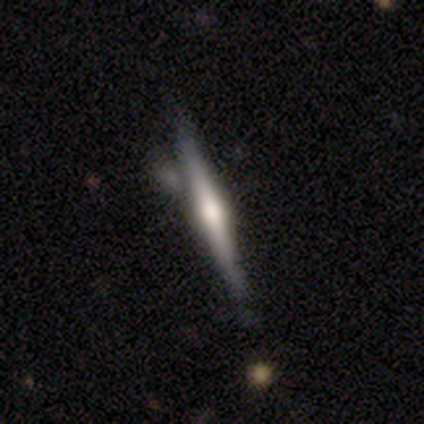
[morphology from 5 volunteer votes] type=smooth (40%, tied with featured or disk); roundness=cigar-shaped (100%); merging=none (75%).